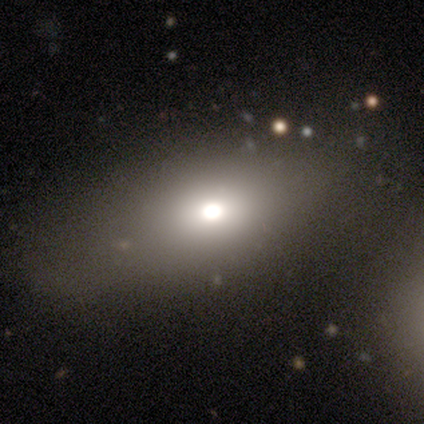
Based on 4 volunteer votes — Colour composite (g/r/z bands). It shows a smooth galaxy with no disk features (75%) that is in between round and cigar-shaped (100%). Merging: none (75%).